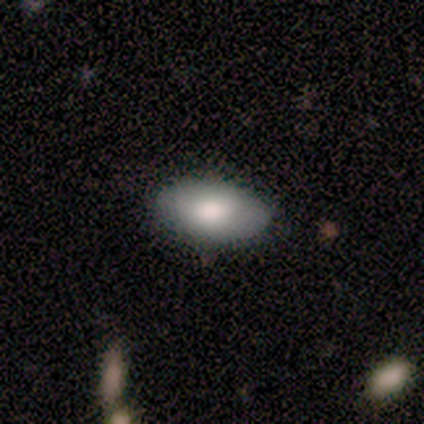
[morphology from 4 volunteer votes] This is likely a smooth galaxy (75%). How rounded: clearly in between (100%). Merging: clearly none (100%).